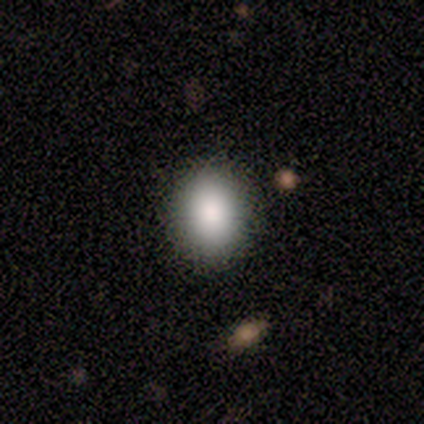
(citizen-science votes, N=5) This is clearly a smooth galaxy (80%). How rounded: possibly round (50%, tied with in between). Merging: clearly none (80%).